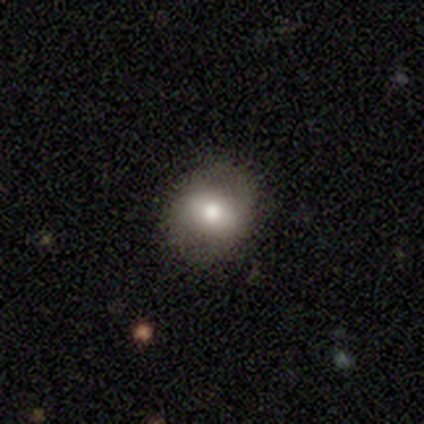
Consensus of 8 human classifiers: Smooth or featured: smooth — 75% (featured or disk — 25%)
How rounded: in between — 83% (round — 17%)
Merging: none — 100%